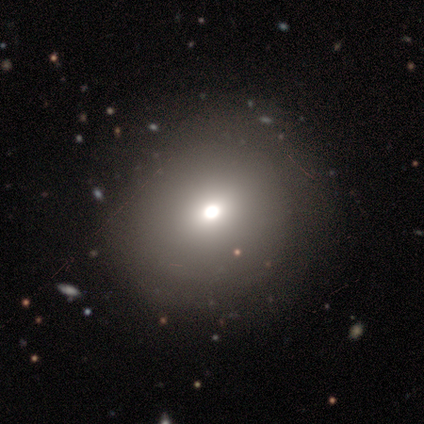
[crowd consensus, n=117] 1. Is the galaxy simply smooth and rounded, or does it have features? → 68% smooth, 20% star or artifact, 12% featured or disk.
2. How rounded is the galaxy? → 89% round, 11% in between, 0% cigar-shaped.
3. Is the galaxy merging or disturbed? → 59% none, 10% minor disturbance, 2% major disturbance, 0% merger.